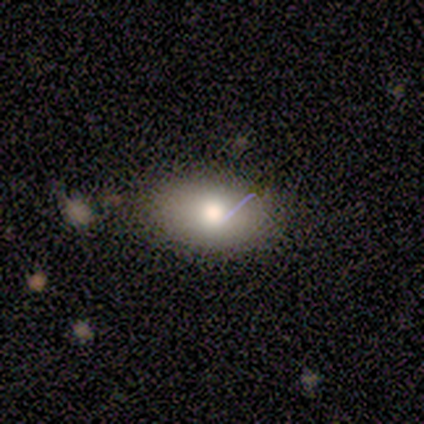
smooth 80%, star or artifact 20%, featured or disk 0%. Down the decision tree: how rounded — in between (100%); merging — none (100%).